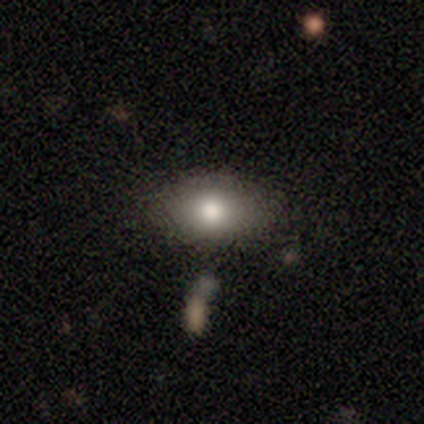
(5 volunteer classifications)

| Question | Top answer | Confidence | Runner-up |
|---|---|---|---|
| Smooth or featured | smooth | 80% | featured or disk (20%) |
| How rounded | in between | 100% | — |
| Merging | none | 60% | major disturbance (20%) |